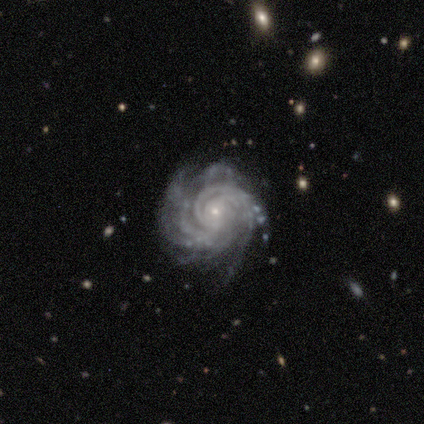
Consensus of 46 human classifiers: Q: Smooth or featured?
A: featured or disk (91%); runner-up: star or artifact (9%)
Q: Edge-on disk?
A: no (100%)
Q: Bar?
A: no (83%); runner-up: weak (17%)
Q: Spiral arms?
A: yes (100%)
Q: Spiral winding?
A: tight (67%); runner-up: medium (33%)
Q: Spiral arm count?
A: more than 4 (43%); runner-up: can't tell (26%)
Q: Bulge size?
A: small (90%); runner-up: none (5%)
Q: Merging?
A: none (50%); runner-up: minor disturbance (38%)